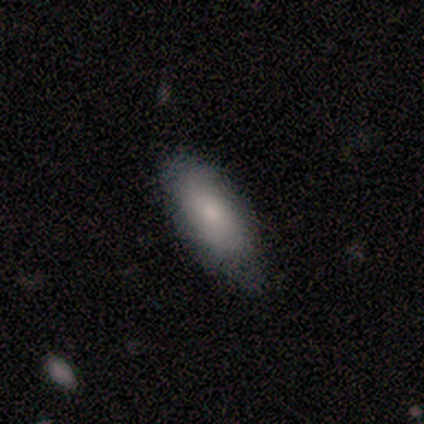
Morphology: type=smooth (100%); roundness=in between (100%); merging=none (80%).